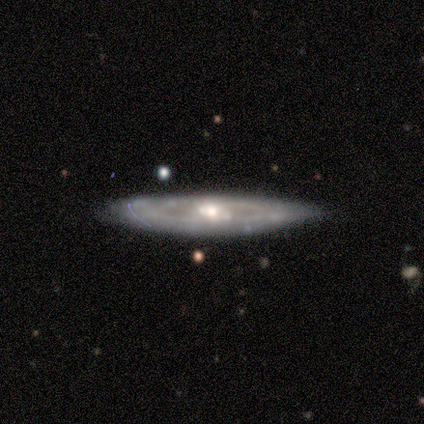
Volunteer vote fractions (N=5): Smooth or featured?
  - featured or disk: 60% *
  - smooth: 40%
  - star or artifact: 0%
Edge-on disk?
  - yes: 67% *
  - no: 33%
Edge-on bulge?
  - none: 100% *
  - boxy: 0%
  - rounded: 0%
Merging?
  - none: 100% *
  - minor disturbance: 0%
  - major disturbance: 0%
  - merger: 0%